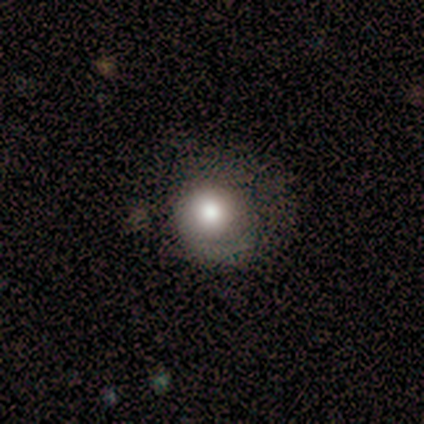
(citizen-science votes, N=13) Smooth or featured? 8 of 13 (62%) said smooth. How rounded? 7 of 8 (88%) said round. Merging? 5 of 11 (45%) said none.